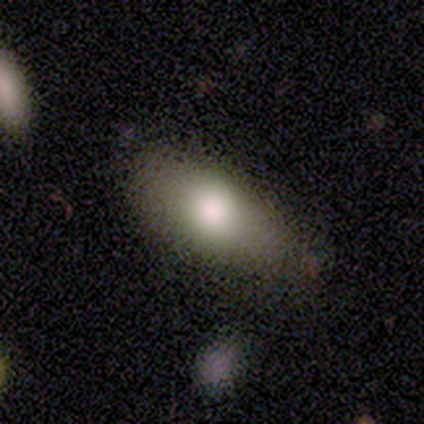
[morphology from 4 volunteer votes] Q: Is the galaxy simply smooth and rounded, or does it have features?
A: smooth — 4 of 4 (100%).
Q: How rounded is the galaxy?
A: in between — 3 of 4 (75%).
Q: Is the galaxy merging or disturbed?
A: minor disturbance — 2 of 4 (50%).